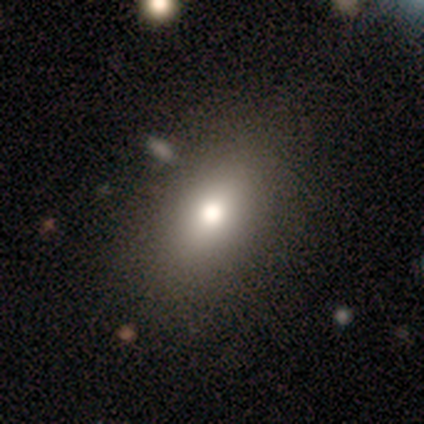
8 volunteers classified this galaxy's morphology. Smooth or featured?
  - smooth: 62% *
  - featured or disk: 25%
  - star or artifact: 12%
How rounded?
  - in between: 60% *
  - round: 40%
  - cigar-shaped: 0%
Merging?
  - none: 71% *
  - minor disturbance: 14%
  - major disturbance: 14%
  - merger: 0%